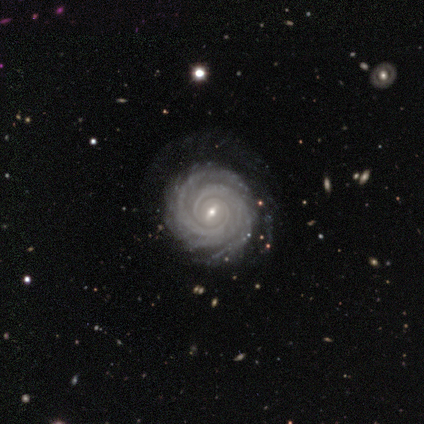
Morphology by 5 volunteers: Volunteers were most divided on "bar": weak: 60%, strong: 20%, no: 20%. More confident: smooth or featured — featured or disk (100%); edge-on disk — no (100%); spiral arms — yes (100%); spiral winding — tight (100%); merging — none (100%); bulge size — small (80%); spiral arm count — 2 (60%).